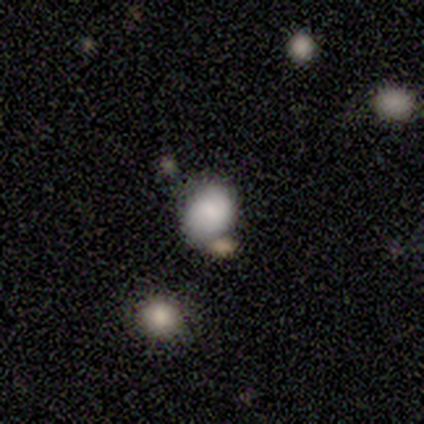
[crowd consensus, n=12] Overall: smooth (92%). How rounded: round (55%; in between 45%). Merging: none (45%; minor disturbance 27%).